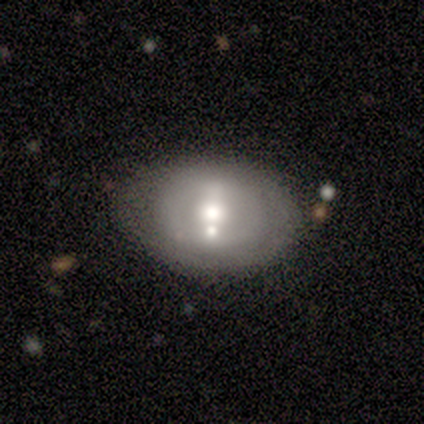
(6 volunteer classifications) smooth_or_featured: featured or disk (p=0.67) [alt: smooth p=0.17]
disk_edge_on: no (p=1.00)
bar: weak (p=0.50) [alt: strong p=0.25]
has_spiral_arms: yes (p=0.50) [tied with: no p=0.50]
spiral_winding: tight (p=0.50) [tied with: loose p=0.50]
spiral_arm_count: 1 (p=0.50) [tied with: can't tell p=0.50]
bulge_size: moderate (p=0.75) [alt: small p=0.25]
merging: none (p=0.60) [alt: minor disturbance p=0.20]